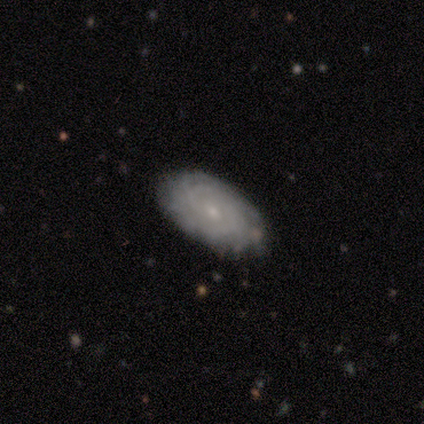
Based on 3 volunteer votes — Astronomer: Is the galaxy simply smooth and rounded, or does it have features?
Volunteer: featured or disk — 100%.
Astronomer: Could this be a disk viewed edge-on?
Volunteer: no — 100%.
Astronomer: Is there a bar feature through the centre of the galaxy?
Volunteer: no — 100%.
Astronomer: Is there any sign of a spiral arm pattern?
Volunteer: yes — 100%.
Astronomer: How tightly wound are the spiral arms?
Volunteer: tight — 67%.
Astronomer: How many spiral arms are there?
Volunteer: can't tell — 100%.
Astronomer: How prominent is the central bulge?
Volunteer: small — 100%.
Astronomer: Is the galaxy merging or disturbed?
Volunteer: none — 100%.